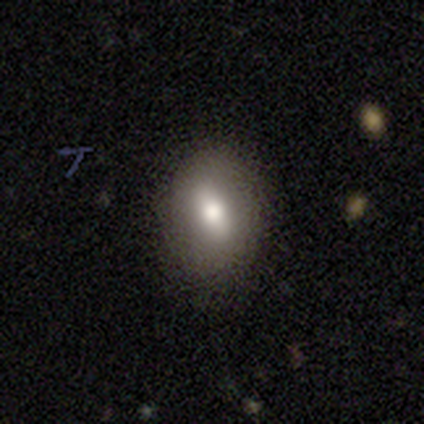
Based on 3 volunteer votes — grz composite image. It shows a smooth galaxy with no disk features (100%) that is in between round and cigar-shaped (67%). Merging: none (100%).